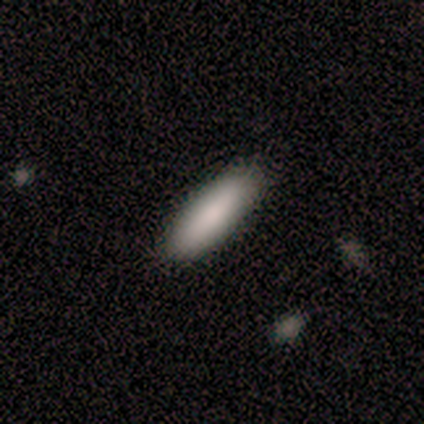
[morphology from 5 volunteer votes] Smooth or featured? smooth (100%)
How rounded? cigar-shaped (60%)
Merging? none (80%)